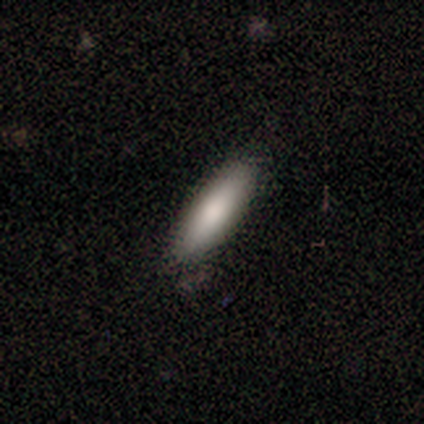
A smooth galaxy with no disk features (100%) that is in between round and cigar-shaped (50%, tied with cigar-shaped).

Vote fractions:
- Smooth or featured? smooth: 100% / featured or disk: 0% / star or artifact: 0%
- How rounded? in between: 50% (tied) / cigar-shaped: 50% (tied) / round: 0%
- Merging? none: 100% / minor disturbance: 0% / major disturbance: 0% / merger: 0%